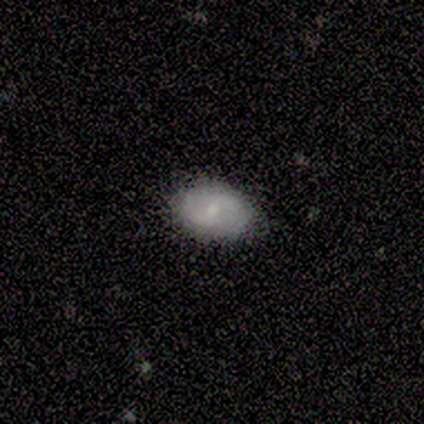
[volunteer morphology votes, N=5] Overall: featured or disk (60%; smooth 40%). Edge-on disk: no (100%). Bar: weak (67%; no 33%). Spiral arms: yes (67%; no 33%). Spiral arm count: 2 (100%). Spiral winding: tight (50%, tied with medium). Bulge size: moderate (67%; small 33%). Merging: none (80%).